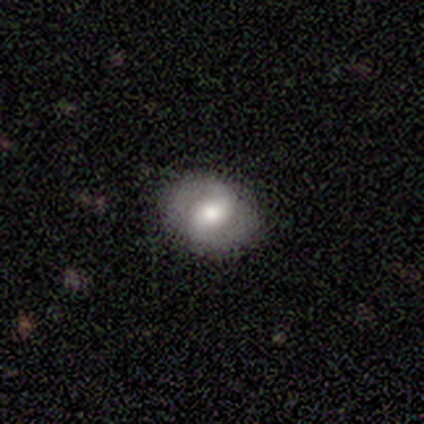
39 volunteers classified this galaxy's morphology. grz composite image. It shows a featured or disk galaxy (62%) with a weak bar (50%), 2 (100%) medium (52%) spiral arms (88%) and a moderate central bulge (54%). Merging: none (79%).